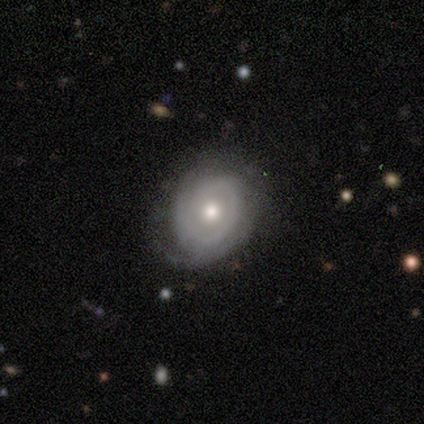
A featured or disk galaxy (80%) with no bar (75%), 1 (33%, tied with 2 and 3) tight (67%) spiral arms (75%) and a moderate central bulge (75%).

Vote fractions:
- Smooth or featured? featured or disk: 80% / smooth: 20% / star or artifact: 0%
- Edge-on disk? no: 100% / yes: 0%
- Bar? no: 75% / weak: 25% / strong: 0%
- Spiral arms? yes: 75% / no: 25%
- Spiral winding? tight: 67% / medium: 33% / loose: 0%
- Spiral arm count? 1: 33% (tied) / 2: 33% (tied) / 3: 33% (tied) / 4: 0% / more than 4: 0% / can't tell: 0%
- Bulge size? moderate: 75% / small: 25% / dominant: 0% / large: 0% / none: 0%
- Merging? none: 80% / minor disturbance: 20% / major disturbance: 0% / merger: 0%